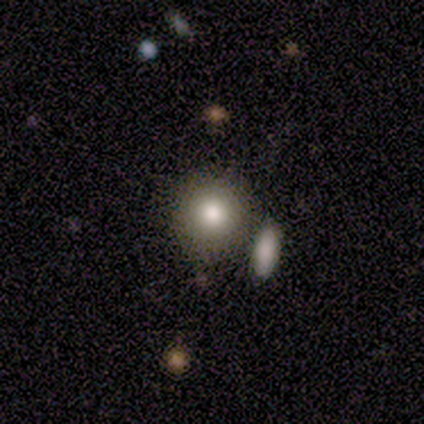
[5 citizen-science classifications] Overall: smooth (80%). How rounded: round (50%; in between 25%). Merging: none (80%).